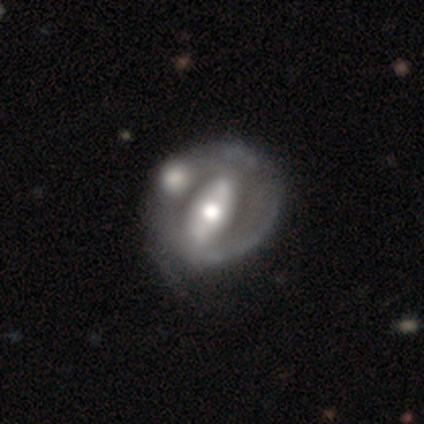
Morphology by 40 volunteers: Volunteers were most divided on "spiral arms" (2-way tie): yes: 50%, no: 50%. Remaining: edge-on disk — no (94%); smooth or featured — featured or disk (90%); bulge size — moderate (71%); bar — strong (71%); spiral winding — tight (53%); spiral arm count — 2 (41%); merging — none (28%).